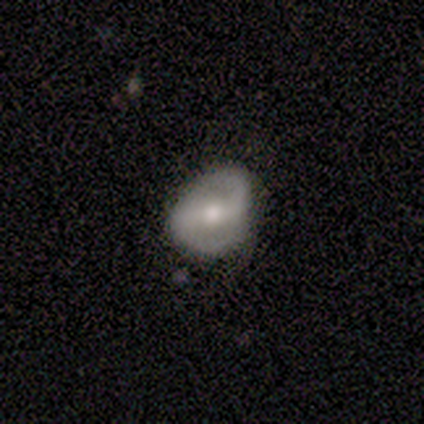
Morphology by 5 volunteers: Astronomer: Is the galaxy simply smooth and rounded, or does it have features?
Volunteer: featured or disk — 100%.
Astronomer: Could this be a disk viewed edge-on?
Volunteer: no — 100%.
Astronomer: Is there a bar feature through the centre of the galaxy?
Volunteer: strong — 40%, tied with no at 40%.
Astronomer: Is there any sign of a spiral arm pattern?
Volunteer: yes — 100%.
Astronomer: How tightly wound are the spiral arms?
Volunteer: medium — 60%.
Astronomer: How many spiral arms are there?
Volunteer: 2 — 80%.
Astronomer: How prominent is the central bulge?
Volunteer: moderate — 60%.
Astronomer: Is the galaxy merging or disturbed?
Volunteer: none — 40%, tied with minor disturbance at 40%.